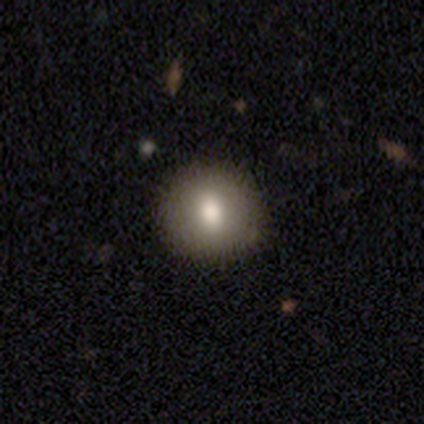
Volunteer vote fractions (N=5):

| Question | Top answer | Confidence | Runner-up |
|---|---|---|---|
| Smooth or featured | smooth | 100% | — |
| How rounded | round | 100% | — |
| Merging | none | 100% | — |